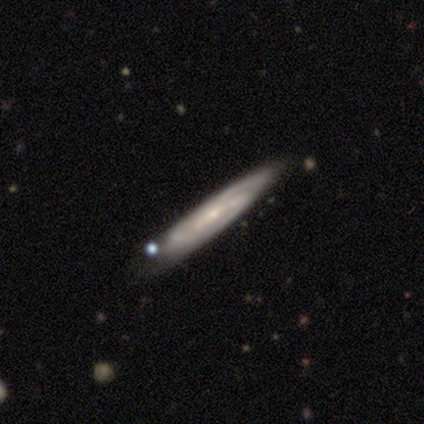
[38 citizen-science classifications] Morphology: type=featured or disk (89%); edge-on=yes (56%); edge-on bulge=none (74%); merging=none (69%).